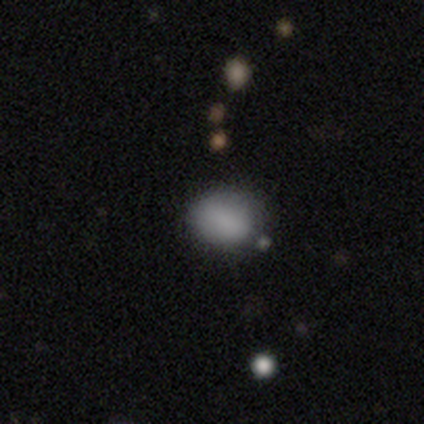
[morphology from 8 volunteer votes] Q: Smooth or featured?
A: smooth (88%); runner-up: featured or disk (12%)
Q: How rounded?
A: round (71%); runner-up: in between (29%)
Q: Merging?
A: none (50%); tied with: minor disturbance (50%)